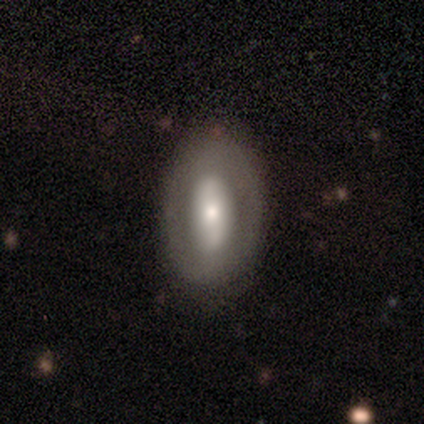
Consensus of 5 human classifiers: featured or disk 60%, smooth 40%, star or artifact 0%. Down the decision tree: edge-on disk — no (67%); bar — strong (50%, tied with no); spiral arms — no (100%); bulge size — moderate (50%, tied with small); merging — none (80%).